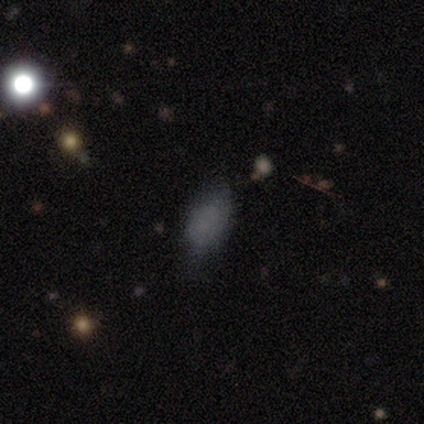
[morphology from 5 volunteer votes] smooth 80%, star or artifact 20%, featured or disk 0%. Down the decision tree: how rounded — in between (100%); merging — minor disturbance (50%).